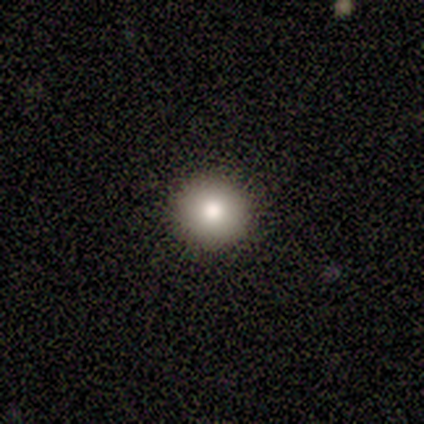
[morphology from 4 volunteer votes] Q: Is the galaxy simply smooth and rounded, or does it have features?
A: smooth — 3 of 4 (75%).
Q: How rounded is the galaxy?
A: round — 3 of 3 (100%).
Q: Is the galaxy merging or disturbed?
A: none — 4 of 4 (100%).